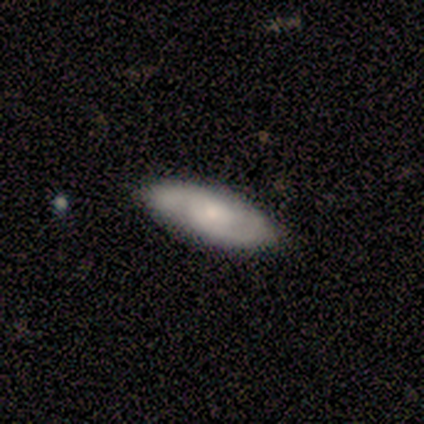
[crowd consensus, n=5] smooth-or-featured: smooth: 60% | featured or disk: 40% | star or artifact: 0%
  how-rounded: cigar-shaped: 67% | in between: 33% | round: 0%
  merging: none: 100% | minor disturbance: 0% | major disturbance: 0% | merger: 0%